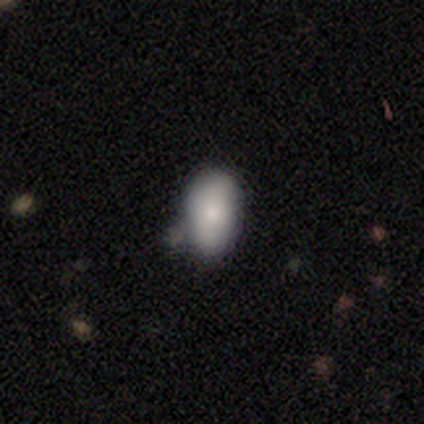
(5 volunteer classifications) Smooth or featured? 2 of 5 (40%, tied with star or artifact) said featured or disk. Edge-on disk? 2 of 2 (100%) said no. Bar? 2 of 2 (100%) said no. Spiral arms? 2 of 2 (100%) said no. Bulge size? 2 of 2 (100%) said small. Merging? 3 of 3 (100%) said none.